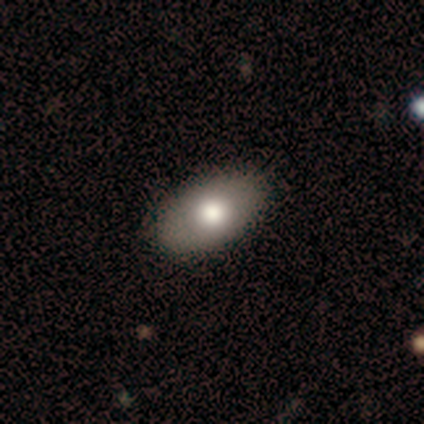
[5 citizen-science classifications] smooth_or_featured: smooth (p=1.00)
how_rounded: in between (p=1.00)
merging: none (p=0.80) [alt: merger p=0.20]